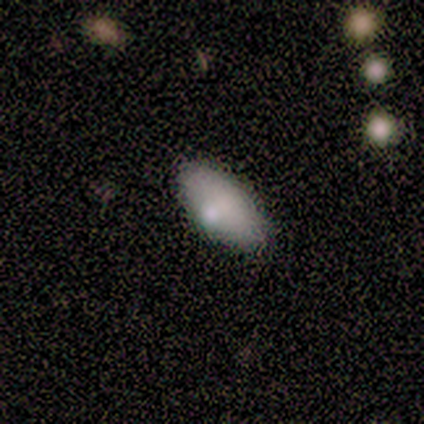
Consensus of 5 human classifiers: This appears to be a smooth galaxy with no disk features (40%, tied with featured or disk) that is in between round and cigar-shaped (100%). Merging: none (75%).